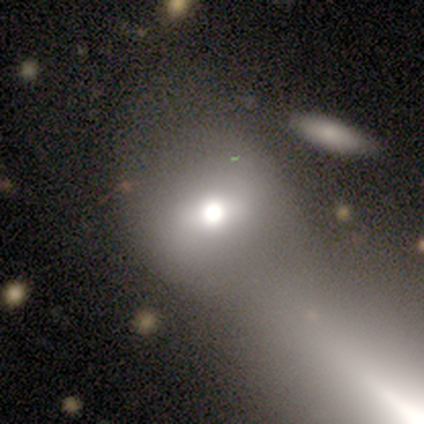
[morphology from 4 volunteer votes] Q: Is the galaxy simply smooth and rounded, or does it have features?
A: featured or disk — 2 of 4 (50%).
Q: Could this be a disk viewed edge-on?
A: no — 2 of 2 (100%).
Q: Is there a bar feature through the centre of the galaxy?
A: strong — 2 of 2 (100%).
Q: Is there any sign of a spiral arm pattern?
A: yes — 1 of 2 (50%, tied with no).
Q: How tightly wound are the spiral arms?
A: tight — 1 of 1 (100%).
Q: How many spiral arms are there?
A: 4 — 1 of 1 (100%).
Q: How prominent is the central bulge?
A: dominant — 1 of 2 (50%, tied with moderate).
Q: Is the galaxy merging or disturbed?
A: merger — 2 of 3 (67%).